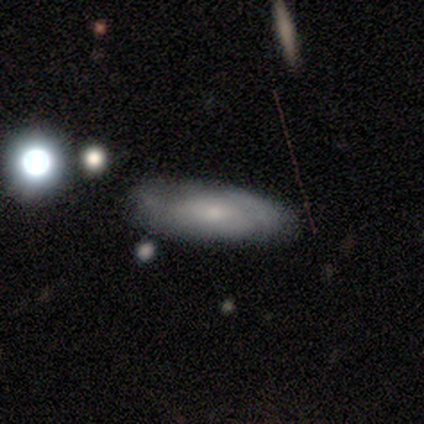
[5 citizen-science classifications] smooth-or-featured: featured or disk: 40% (tied) | star or artifact: 40% (tied) | smooth: 20%
  disk-edge-on: no: 100% | yes: 0%
    bar: no: 100% | strong: 0% | weak: 0%
    has-spiral-arms: yes: 100% | no: 0%
      spiral-winding: medium: 100% | tight: 0% | loose: 0%
      spiral-arm-count: can't tell: 100% | 1: 0% | 2: 0% | 3: 0% | 4: 0% | more than 4: 0%
    bulge-size: moderate: 100% | dominant: 0% | large: 0% | small: 0% | none: 0%
  merging: none: 100% | minor disturbance: 0% | major disturbance: 0% | merger: 0%